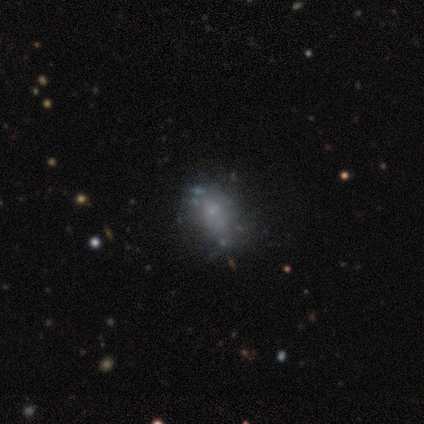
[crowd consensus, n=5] A smooth galaxy with no disk features (40%, tied with featured or disk) that is in between round and cigar-shaped (50%, tied with cigar-shaped).

Vote fractions:
- Smooth or featured? smooth: 40% (tied) / featured or disk: 40% (tied) / star or artifact: 20%
- How rounded? in between: 50% (tied) / cigar-shaped: 50% (tied) / round: 0%
- Merging? minor disturbance: 50% / none: 25% / major disturbance: 25% / merger: 0%